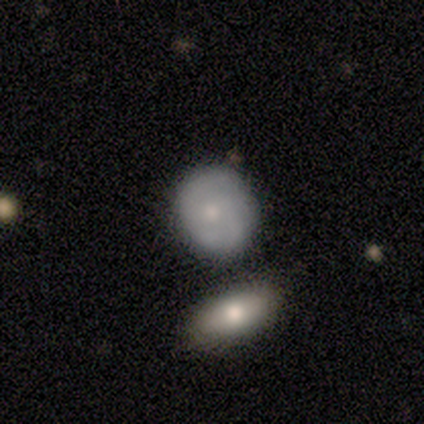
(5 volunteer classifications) Smooth or featured? featured or disk (60%)
Edge-on disk? no (100%)
Bar? no (100%)
Spiral arms? yes (67%)
Spiral winding? tight (50%, tied with medium)
Spiral arm count? 2 (50%, tied with 4)
Bulge size? moderate (67%)
Merging? none (40%, tied with merger)